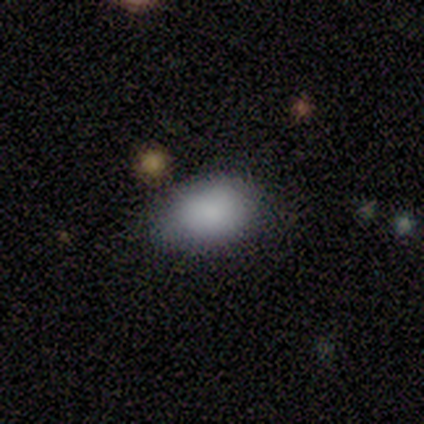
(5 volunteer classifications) smooth-or-featured: smooth: 100% | featured or disk: 0% | star or artifact: 0%
  how-rounded: in between: 100% | round: 0% | cigar-shaped: 0%
  merging: none: 100% | minor disturbance: 0% | major disturbance: 0% | merger: 0%